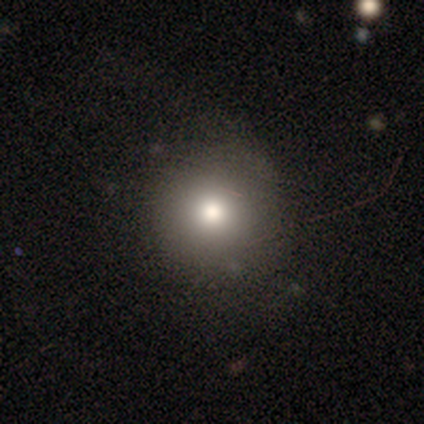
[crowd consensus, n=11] A smooth galaxy with no disk features (82%) that is round (100%).

Vote fractions:
- Smooth or featured? smooth: 82% / featured or disk: 18% / star or artifact: 0%
- How rounded? round: 100% / in between: 0% / cigar-shaped: 0%
- Merging? none: 91% / major disturbance: 9% / minor disturbance: 0% / merger: 0%